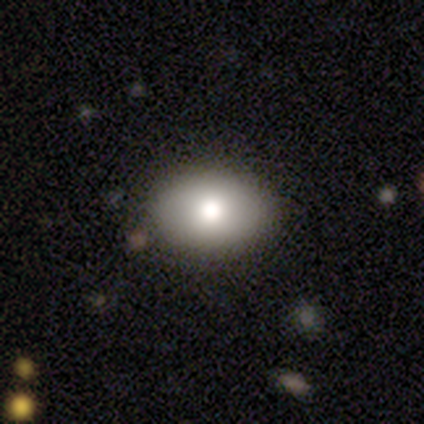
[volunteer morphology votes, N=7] type=smooth (100%); roundness=in between (100%); merging=none (86%).